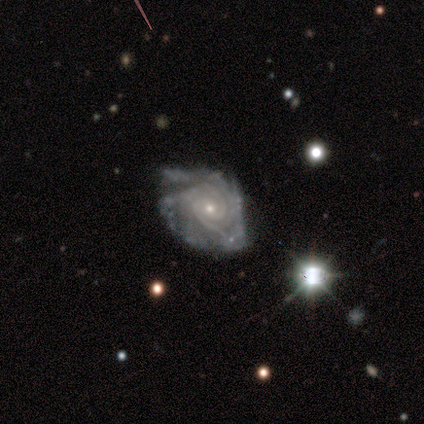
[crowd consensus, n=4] Smooth or featured: featured or disk — 75% (star or artifact — 25%)
Edge-on disk: no — 100%
Bar: no — 67% (weak — 33%)
Spiral arms: yes — 100%
Spiral winding: tight — 67% (medium — 33%)
Spiral arm count: 2 — 33% (tied with 3 — 33%; more than 4 — 33%)
Bulge size: small — 67% (moderate — 33%)
Merging: none — 100%